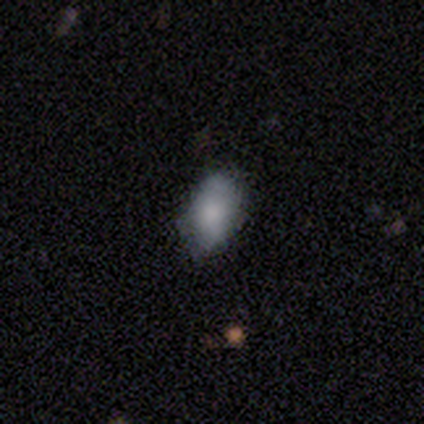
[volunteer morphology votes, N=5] Volunteers were most divided on "merging": minor disturbance: 50%, none: 25%, major disturbance: 25%, merger: 0%. More confident: how rounded — in between (100%); smooth or featured — smooth (80%).